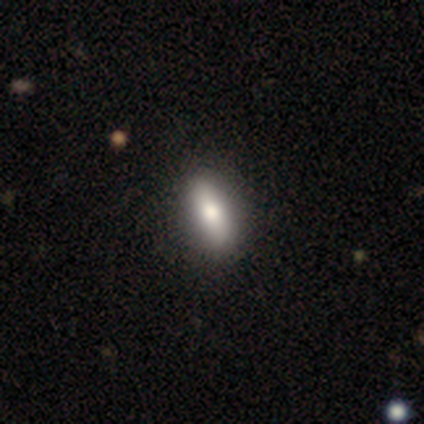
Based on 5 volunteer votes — Morphology: type=smooth (80%); roundness=in between (100%); merging=none (100%).